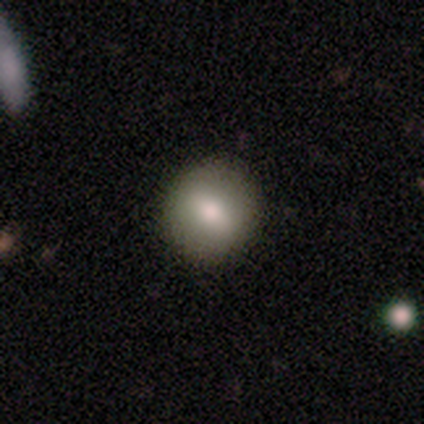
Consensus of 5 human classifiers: smooth-or-featured: smooth: 60% | featured or disk: 40% | star or artifact: 0%
  how-rounded: round: 67% | in between: 33% | cigar-shaped: 0%
  merging: none: 100% | minor disturbance: 0% | major disturbance: 0% | merger: 0%